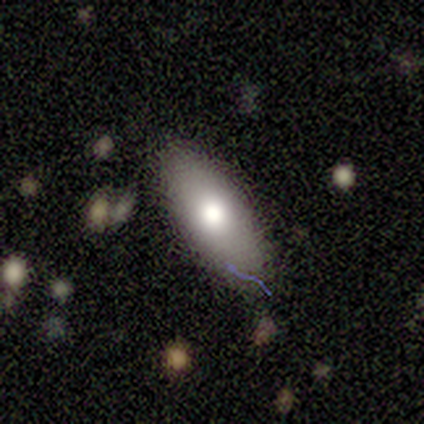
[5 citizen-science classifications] Smooth or featured? smooth (80%)
How rounded? in between (100%)
Merging? none (100%)